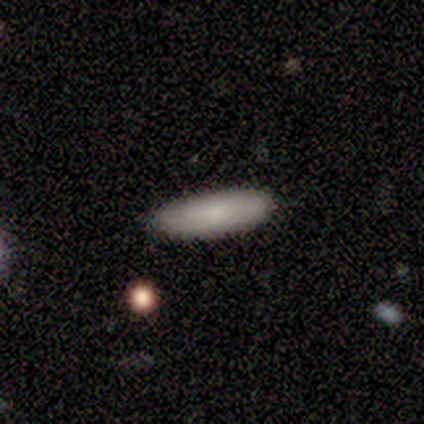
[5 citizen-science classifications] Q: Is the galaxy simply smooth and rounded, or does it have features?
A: smooth — 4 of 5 (80%).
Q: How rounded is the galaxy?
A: in between — 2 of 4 (50%, tied with cigar-shaped).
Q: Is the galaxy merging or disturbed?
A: none — 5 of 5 (100%).